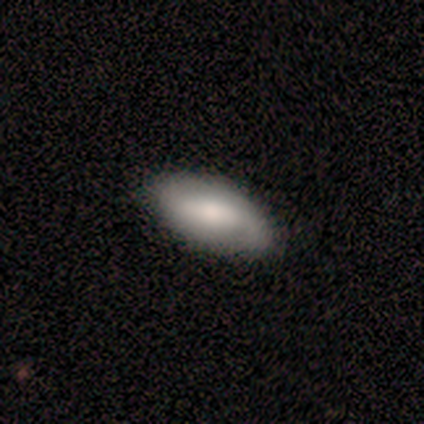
Smooth or featured? 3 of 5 (60%) said smooth. How rounded? 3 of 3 (100%) said in between. Merging? 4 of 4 (100%) said none.